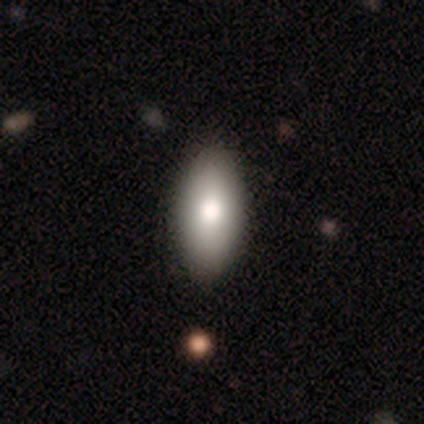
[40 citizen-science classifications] Volunteers were most divided on "merging": none: 48%, minor disturbance: 10%, merger: 2%, major disturbance: 0%. More confident: how rounded — in between (88%); smooth or featured — smooth (82%).